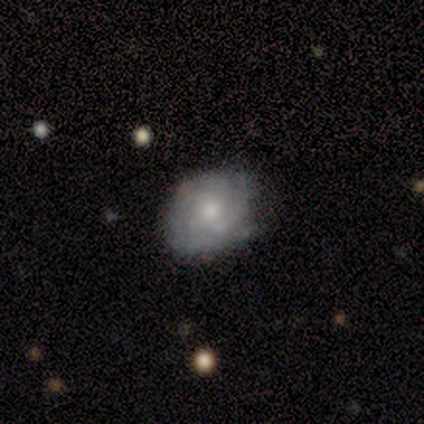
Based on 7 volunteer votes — Morphology: type=featured or disk (57%); edge-on=no (100%); bar=no (100%); spiral arms=yes (75%); winding=tight (100%); arm count=can't tell (67%); bulge=small (75%); merging=none (71%).